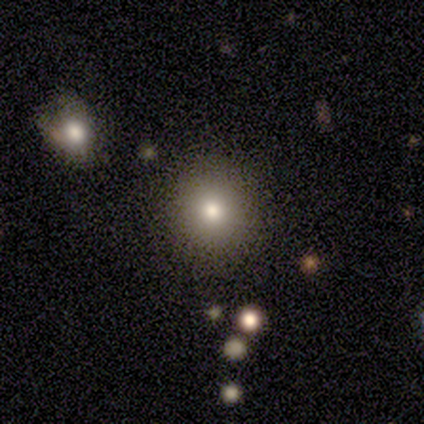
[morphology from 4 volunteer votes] Overall: smooth (75%). How rounded: round (100%). Merging: none (67%; minor disturbance 33%).